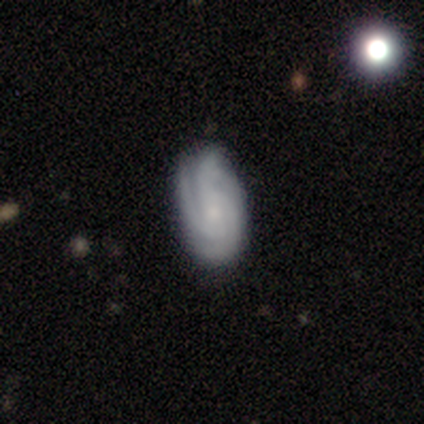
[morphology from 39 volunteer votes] smooth-or-featured: featured or disk: 74% | smooth: 18% | star or artifact: 8%
  disk-edge-on: no: 90% | yes: 10%
    bar: no: 65% | weak: 35% | strong: 0%
    has-spiral-arms: yes: 88% | no: 12%
      spiral-winding: tight: 43% (tied) | medium: 43% (tied) | loose: 13%
      spiral-arm-count: 3: 48% | can't tell: 35% | 2: 9% | 4: 9% | 1: 0% | more than 4: 0%
    bulge-size: small: 58% | none: 31% | moderate: 12% | dominant: 0% | large: 0%
  merging: none: 81% | minor disturbance: 11% | major disturbance: 8% | merger: 0%